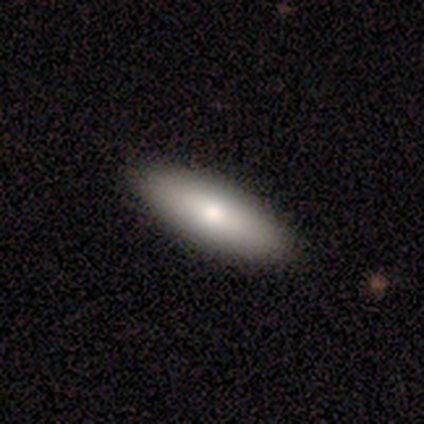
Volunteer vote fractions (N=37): This appears to be a smooth galaxy with no disk features (65%) that is in between round and cigar-shaped (92%). Merging: none (57%).